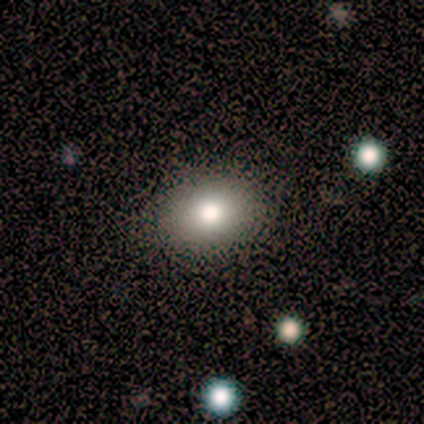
Smooth or featured: smooth — 50% (tied with featured or disk — 50%)
How rounded: round — 100%
Merging: none — 50% (tied with major disturbance — 50%)